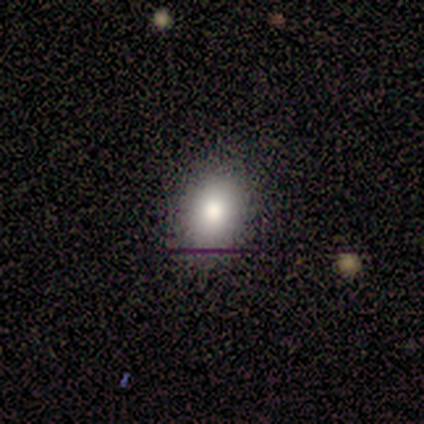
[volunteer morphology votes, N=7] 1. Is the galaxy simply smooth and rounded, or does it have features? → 86% smooth, 14% star or artifact, 0% featured or disk.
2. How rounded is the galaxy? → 50% round (tied), 50% in between (tied), 0% cigar-shaped.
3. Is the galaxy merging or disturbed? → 100% none, 0% minor disturbance, 0% major disturbance, 0% merger.